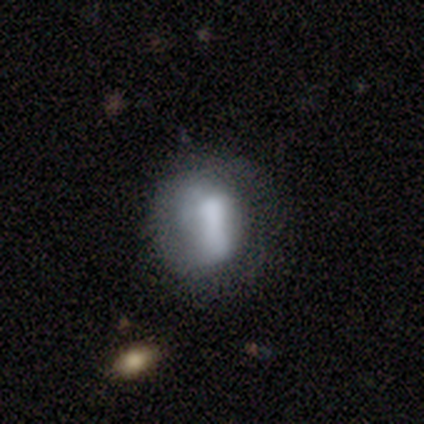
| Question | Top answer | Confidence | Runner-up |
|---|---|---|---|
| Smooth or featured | smooth | 56% | featured or disk (28%) |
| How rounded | round | 59% | in between (36%) |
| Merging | none | 39% | minor disturbance (27%) |